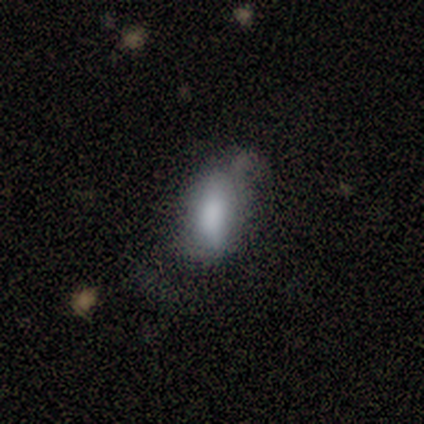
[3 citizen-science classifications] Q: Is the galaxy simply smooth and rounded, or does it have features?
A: smooth — 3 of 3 (100%).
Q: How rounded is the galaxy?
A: in between — 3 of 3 (100%).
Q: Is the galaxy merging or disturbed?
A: none — 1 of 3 (33%, tied with minor disturbance and major disturbance).